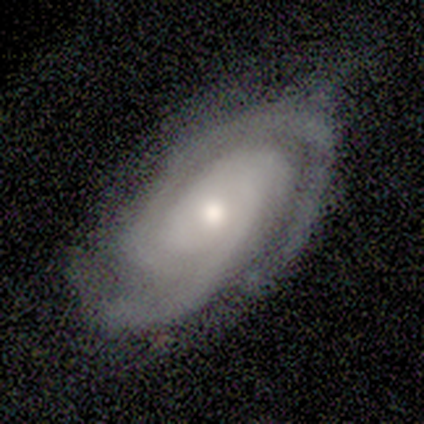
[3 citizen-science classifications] Smooth or featured?
  - featured or disk: 100% *
  - smooth: 0%
  - star or artifact: 0%
Edge-on disk?
  - no: 100% *
  - yes: 0%
Bar?
  - no: 100% *
  - strong: 0%
  - weak: 0%
Spiral arms?
  - yes: 100% *
  - no: 0%
Spiral winding?
  - tight: 100% *
  - medium: 0%
  - loose: 0%
Spiral arm count?
  - 2: 100% *
  - 1: 0%
  - 3: 0%
  - 4: 0%
  - more than 4: 0%
  - can't tell: 0%
Bulge size?
  - moderate: 67% *
  - small: 33%
  - dominant: 0%
  - large: 0%
  - none: 0%
Merging?
  - none: 100% *
  - minor disturbance: 0%
  - major disturbance: 0%
  - merger: 0%